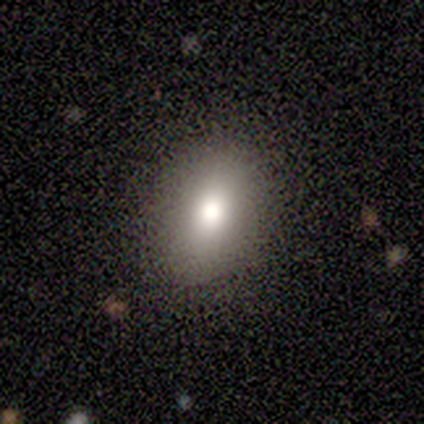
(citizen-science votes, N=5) Consensus on every question: smooth or featured — smooth (100%); how rounded — in between (100%); merging — none (100%).